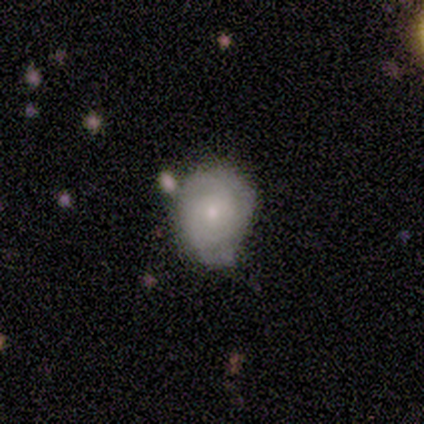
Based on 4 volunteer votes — A smooth galaxy with no disk features (75%) that is in between round and cigar-shaped (67%).

Vote fractions:
- Smooth or featured? smooth: 75% / featured or disk: 25% / star or artifact: 0%
- How rounded? in between: 67% / round: 33% / cigar-shaped: 0%
- Merging? none: 50% (tied) / minor disturbance: 50% (tied) / major disturbance: 0% / merger: 0%